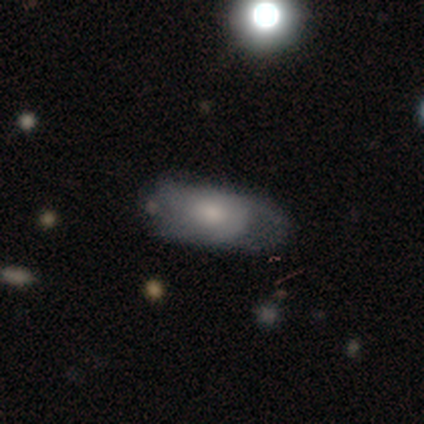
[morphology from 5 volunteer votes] Smooth or featured? 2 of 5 (40%, tied with featured or disk) said smooth. How rounded? 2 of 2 (100%) said in between. Merging? 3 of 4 (75%) said none.